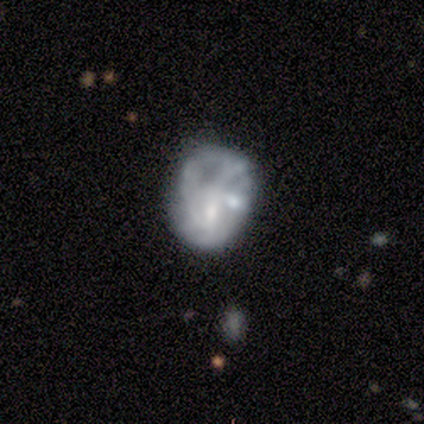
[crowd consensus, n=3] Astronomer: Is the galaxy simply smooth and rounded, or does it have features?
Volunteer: featured or disk — 67%.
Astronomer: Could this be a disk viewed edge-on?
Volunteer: no — 100%.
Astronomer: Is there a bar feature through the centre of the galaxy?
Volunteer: weak — 100%.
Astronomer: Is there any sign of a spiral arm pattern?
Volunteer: yes — 50%, tied with no at 50%.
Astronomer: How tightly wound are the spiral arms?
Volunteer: tight — 100%.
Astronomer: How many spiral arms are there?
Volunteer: can't tell — 100%.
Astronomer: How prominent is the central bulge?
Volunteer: moderate — 50%, tied with small at 50%.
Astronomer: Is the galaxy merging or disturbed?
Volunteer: none — 67%.